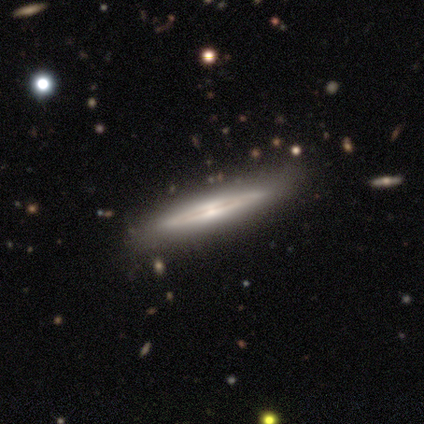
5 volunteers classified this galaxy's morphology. smooth_or_featured: smooth (p=0.60) [alt: featured or disk p=0.40]
how_rounded: cigar-shaped (p=1.00)
merging: none (p=1.00)